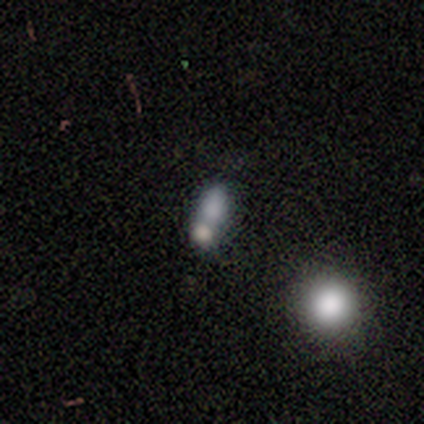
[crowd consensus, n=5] Smooth or featured?
  - smooth: 40% * (tied)
  - featured or disk: 40% * (tied)
  - star or artifact: 20%
How rounded?
  - in between: 50% * (tied)
  - cigar-shaped: 50% * (tied)
  - round: 0%
Merging?
  - none: 50% * (tied)
  - merger: 50% * (tied)
  - minor disturbance: 0%
  - major disturbance: 0%